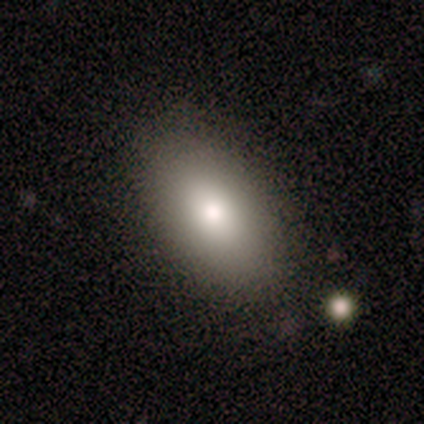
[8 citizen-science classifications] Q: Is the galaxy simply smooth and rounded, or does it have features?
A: smooth — 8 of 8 (100%).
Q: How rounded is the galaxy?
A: in between — 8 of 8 (100%).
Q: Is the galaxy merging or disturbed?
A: none — 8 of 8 (100%).